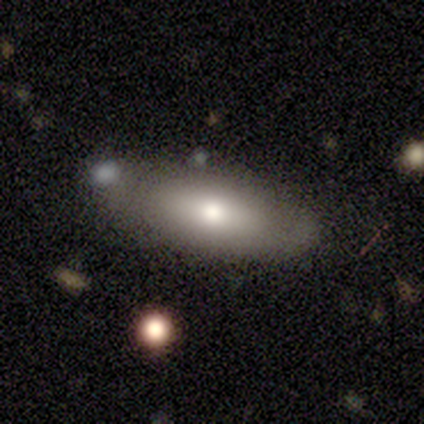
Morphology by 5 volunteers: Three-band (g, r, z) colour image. It shows a smooth galaxy with no disk features (100%) that is in between round and cigar-shaped (60%). Merging: none (80%).